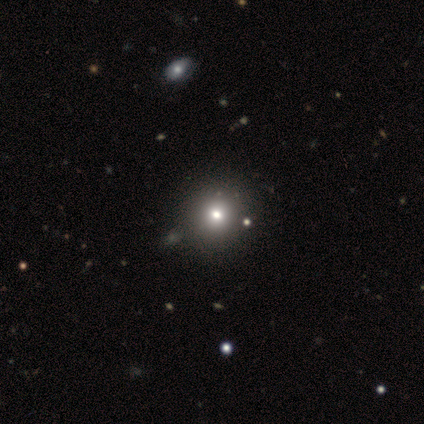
Smooth or featured? smooth (80%)
How rounded? round (100%)
Merging? none (75%)